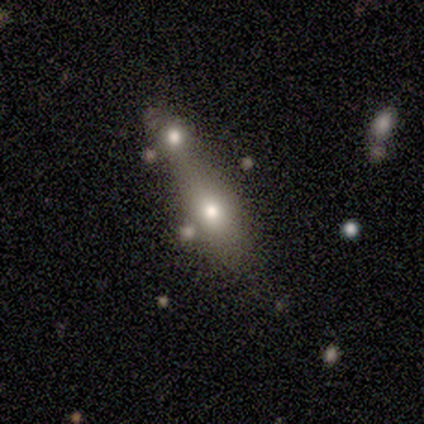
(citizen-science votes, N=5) Smooth or featured? smooth (100%)
How rounded? in between (60%)
Merging? none (40%, tied with merger)